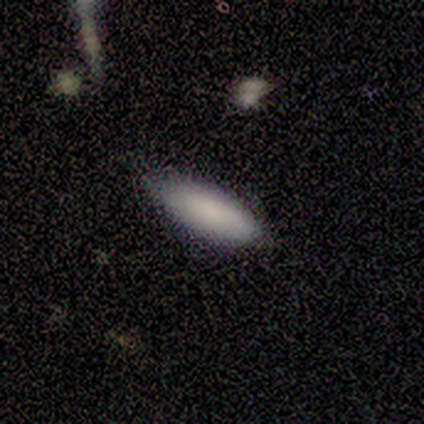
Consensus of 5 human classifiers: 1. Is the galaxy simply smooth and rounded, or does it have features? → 60% smooth, 20% featured or disk, 20% star or artifact.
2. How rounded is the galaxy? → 67% cigar-shaped, 33% in between, 0% round.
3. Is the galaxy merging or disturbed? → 75% minor disturbance, 25% none, 0% major disturbance, 0% merger.